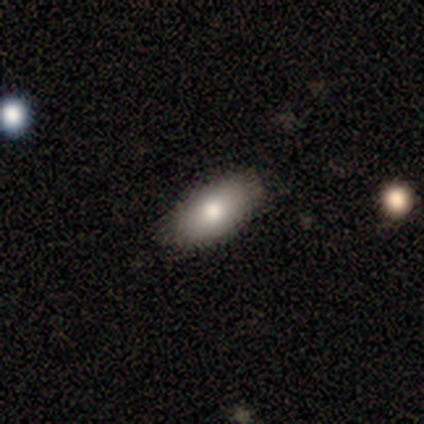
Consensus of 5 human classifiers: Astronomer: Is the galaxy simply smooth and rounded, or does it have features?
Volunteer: smooth — 80%.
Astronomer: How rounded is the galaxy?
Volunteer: in between — 100%.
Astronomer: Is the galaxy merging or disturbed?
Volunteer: none — 60% (runner-up: minor disturbance, 40%).